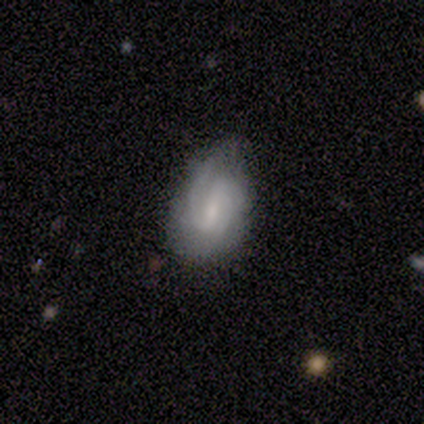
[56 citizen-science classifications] A featured or disk galaxy (79%) with a weak bar (66%), 2 (68%) medium (51%) spiral arms (93%) and a moderate central bulge (43%, tied with small). Merging: none (58%).